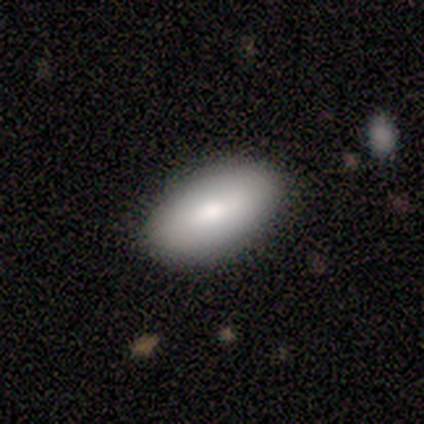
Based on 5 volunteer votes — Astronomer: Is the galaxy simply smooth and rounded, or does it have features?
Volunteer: smooth — 60%.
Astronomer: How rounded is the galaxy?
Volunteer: in between — 100%.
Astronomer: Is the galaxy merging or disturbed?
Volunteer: none — 75%.